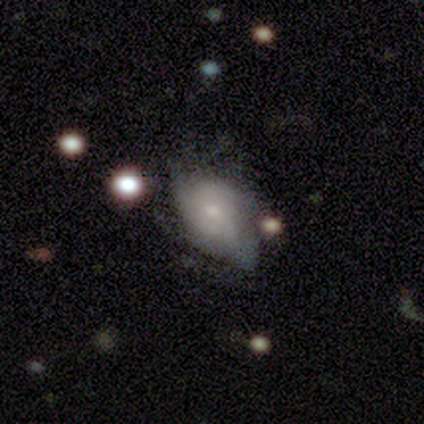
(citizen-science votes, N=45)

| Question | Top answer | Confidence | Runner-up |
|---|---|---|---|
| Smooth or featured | featured or disk | 44% | smooth (38%) |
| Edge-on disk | no | 100% | — |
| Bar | no | 60% | weak (35%) |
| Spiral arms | yes | 60% | no (40%) |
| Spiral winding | tight | 42% | medium (33%) |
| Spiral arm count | can't tell | 50% | 2 (17%) |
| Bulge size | small | 60% | moderate (25%) |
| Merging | minor disturbance | 41% | major disturbance (35%) |